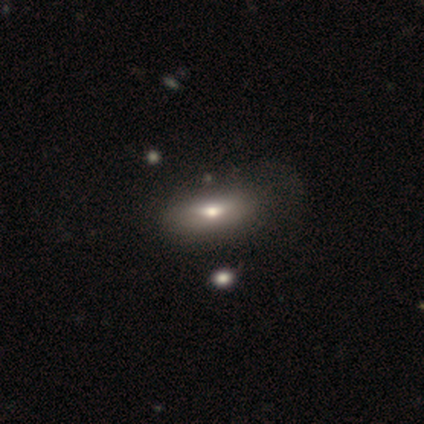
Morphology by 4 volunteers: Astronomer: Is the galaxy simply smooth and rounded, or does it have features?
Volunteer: smooth — 75%.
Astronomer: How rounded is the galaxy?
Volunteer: in between — 100%.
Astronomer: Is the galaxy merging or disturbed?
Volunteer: none — 67%.